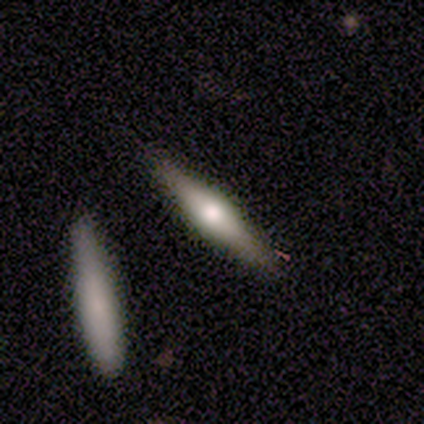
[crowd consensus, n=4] smooth-or-featured: featured or disk: 75% | smooth: 25% | star or artifact: 0%
  disk-edge-on: yes: 100% | no: 0%
    edge-on-bulge: rounded: 67% | boxy: 33% | none: 0%
  merging: none: 75% | major disturbance: 25% | minor disturbance: 0% | merger: 0%